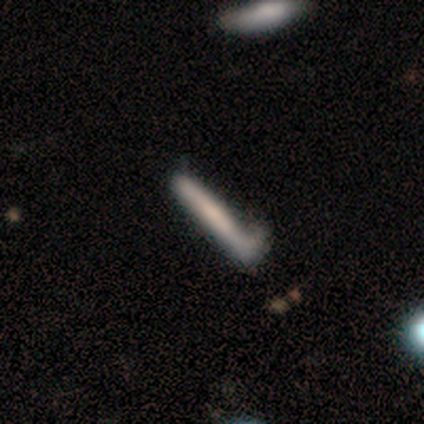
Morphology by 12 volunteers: This appears to be a smooth galaxy with no disk features (58%) that is cigar-shaped (100%). Merging: minor disturbance (58%).